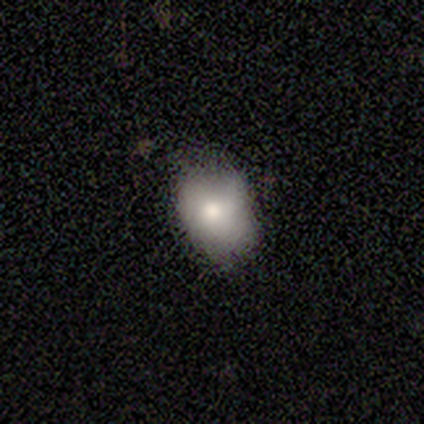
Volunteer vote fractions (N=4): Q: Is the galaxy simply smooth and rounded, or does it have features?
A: smooth — 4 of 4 (100%).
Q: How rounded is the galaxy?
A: in between — 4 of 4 (100%).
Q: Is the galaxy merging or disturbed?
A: minor disturbance — 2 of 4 (50%).